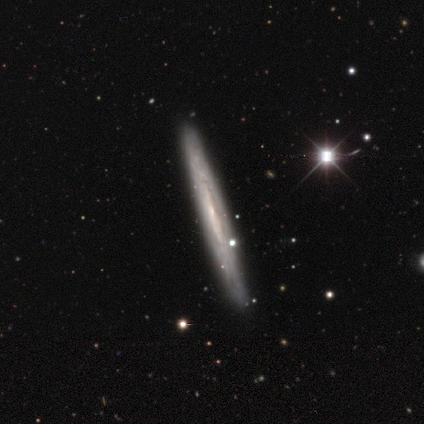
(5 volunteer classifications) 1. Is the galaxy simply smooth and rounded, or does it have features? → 60% featured or disk, 20% smooth, 20% star or artifact.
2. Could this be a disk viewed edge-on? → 100% yes, 0% no.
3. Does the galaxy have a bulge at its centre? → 100% none, 0% boxy, 0% rounded.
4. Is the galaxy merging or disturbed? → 75% none, 25% minor disturbance, 0% major disturbance, 0% merger.